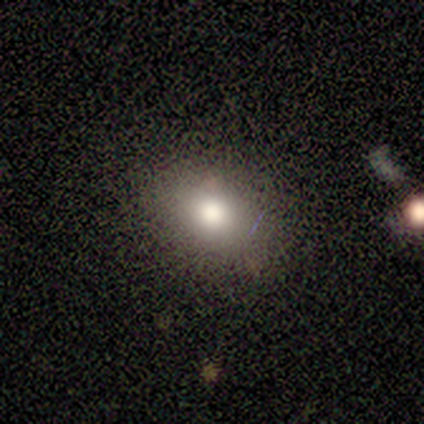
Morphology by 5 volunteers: Volunteers were most divided on "how rounded": in between: 60%, round: 40%, cigar-shaped: 0%. More confident: smooth or featured — smooth (100%); merging — none (60%).